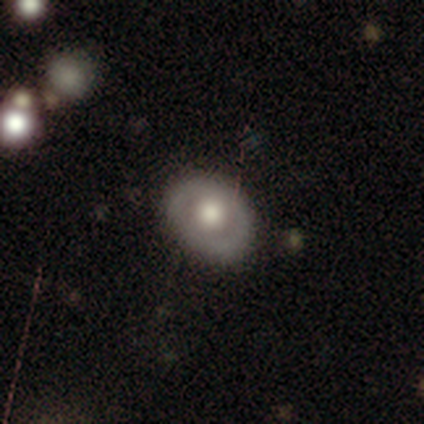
Smooth or featured: featured or disk — 57% (smooth — 38%)
Edge-on disk: no — 96% (yes — 4%)
Bar: no — 91% (strong — 5%)
Spiral arms: no — 91% (yes — 9%)
Bulge size: large — 55% (moderate — 36%)
Merging: none — 97% (minor disturbance — 3%)